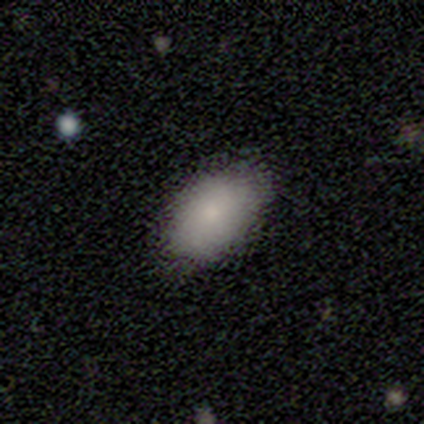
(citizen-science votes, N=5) Volunteers were most divided on "merging": none: 60%, minor disturbance: 40%, major disturbance: 0%, merger: 0%. More confident: smooth or featured — smooth (100%); how rounded — in between (100%).